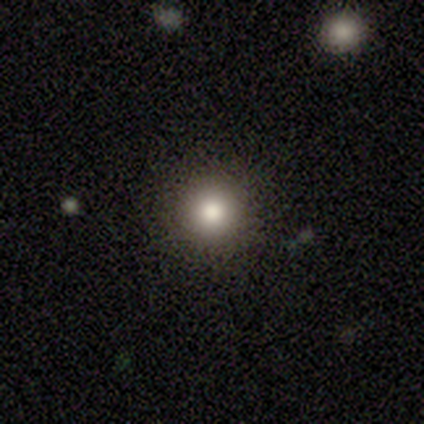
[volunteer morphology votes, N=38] Overall: smooth (79%). How rounded: round (90%). Merging: none (94%).